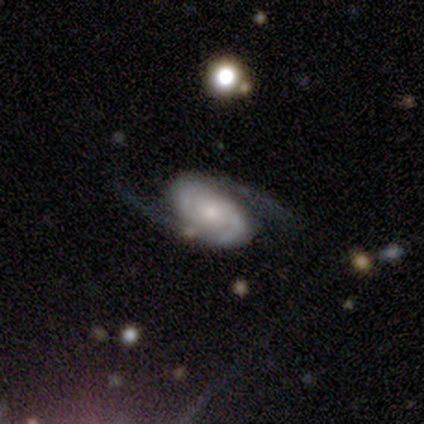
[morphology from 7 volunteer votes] This is clearly a featured or disk galaxy (100%). It is clearly not viewed edge-on (100%). Bar: likely no (71%). Spiral arm pattern: clearly yes (100%). Spiral arm count: clearly 2 (100%). Spiral winding: marginally tight (43%, tied with medium). Central bulge: clearly small (86%). Merging: clearly none (100%).